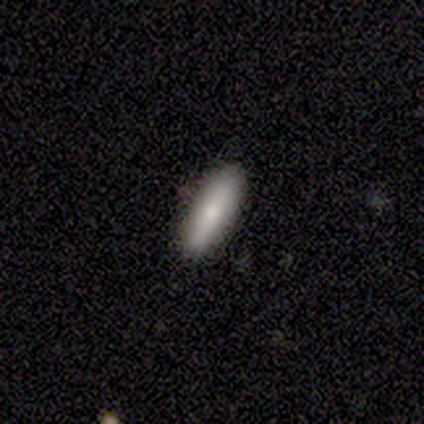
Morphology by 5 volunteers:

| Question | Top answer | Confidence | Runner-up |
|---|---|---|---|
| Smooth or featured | smooth | 60% | featured or disk (40%) |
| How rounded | cigar-shaped | 67% | in between (33%) |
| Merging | none | 100% | — |